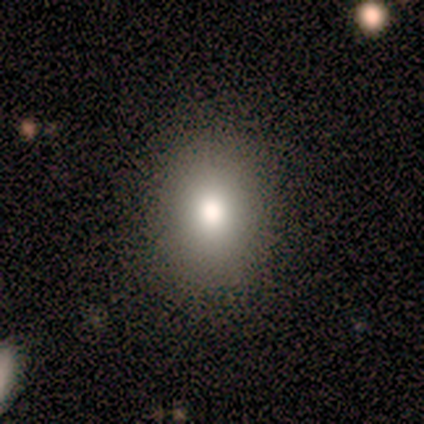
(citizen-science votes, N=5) This appears to be a smooth galaxy with no disk features (60%) that is in between round and cigar-shaped (100%). Merging: none (100%).